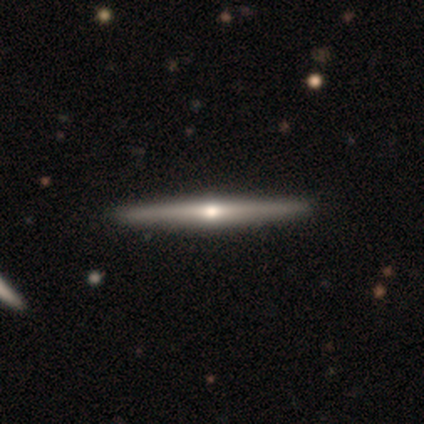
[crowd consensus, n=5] Smooth or featured: featured or disk — 80% (star or artifact — 20%)
Edge-on disk: yes — 100%
Edge-on bulge: rounded — 100%
Merging: none — 100%